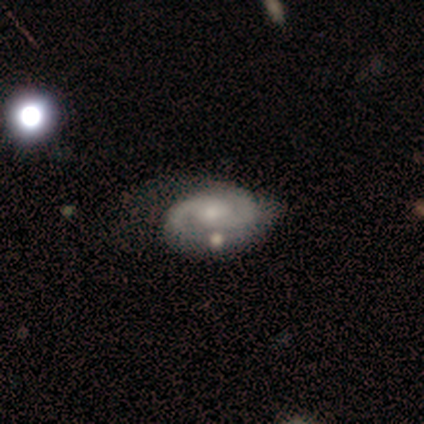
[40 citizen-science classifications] smooth-or-featured: featured or disk: 88% | smooth: 10% | star or artifact: 2%
  disk-edge-on: no: 97% | yes: 3%
    bar: no: 56% | weak: 38% | strong: 6%
    has-spiral-arms: yes: 94% | no: 6%
      spiral-winding: tight: 47% | medium: 41% | loose: 12%
      spiral-arm-count: 2: 88% | can't tell: 6% | 1: 3% | 3: 3% | 4: 0% | more than 4: 0%
    bulge-size: moderate: 53% | small: 38% | none: 9% | dominant: 0% | large: 0%
  merging: none: 62% | major disturbance: 15% | minor disturbance: 13% | merger: 10%